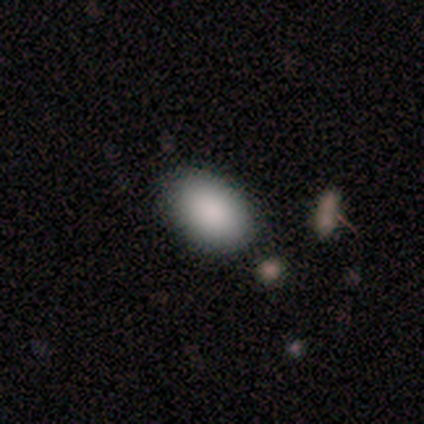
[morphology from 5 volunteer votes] This appears to be a smooth galaxy with no disk features (100%) that is in between round and cigar-shaped (80%). Merging: none (100%).